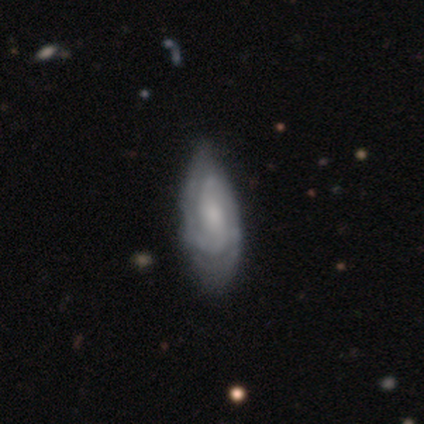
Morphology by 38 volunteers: smooth-or-featured: featured or disk: 74% | smooth: 24% | star or artifact: 3%
  disk-edge-on: no: 93% | yes: 7%
    bar: no: 69% | weak: 27% | strong: 4%
    has-spiral-arms: yes: 88% | no: 12%
      spiral-winding: medium: 48% | tight: 43% | loose: 9%
      spiral-arm-count: 2: 52% | can't tell: 30% | 3: 17% | 1: 0% | 4: 0% | more than 4: 0%
    bulge-size: moderate: 35% | small: 27% | none: 23% | large: 15% | dominant: 0%
  merging: minor disturbance: 41% | none: 24% | major disturbance: 8% | merger: 0%